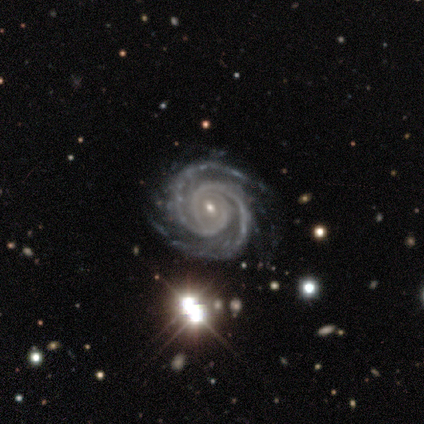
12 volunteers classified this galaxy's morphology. smooth_or_featured: featured or disk (p=1.00)
disk_edge_on: no (p=1.00)
bar: no (p=0.42) [alt: weak p=0.33]
has_spiral_arms: yes (p=1.00)
spiral_winding: tight (p=0.75) [alt: medium p=0.17]
spiral_arm_count: 2 (p=0.75) [alt: 4 p=0.17]
bulge_size: small (p=0.75) [alt: moderate p=0.17]
merging: none (p=0.75) [alt: minor disturbance p=0.25]